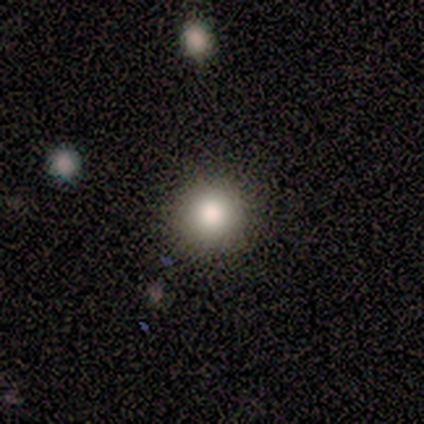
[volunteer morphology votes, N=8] This is likely a smooth galaxy (62%). How rounded: clearly round (100%). Merging: clearly none (100%).